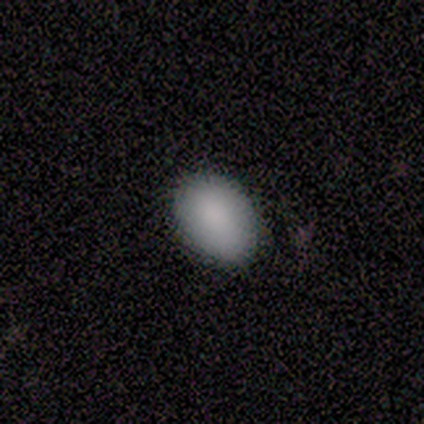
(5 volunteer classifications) smooth-or-featured: smooth: 100% | featured or disk: 0% | star or artifact: 0%
  how-rounded: in between: 80% | round: 20% | cigar-shaped: 0%
  merging: none: 80% | major disturbance: 20% | minor disturbance: 0% | merger: 0%